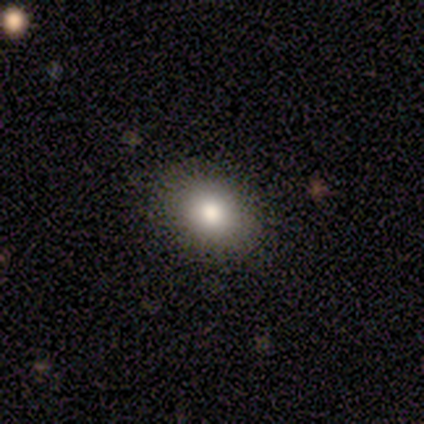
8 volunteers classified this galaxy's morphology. Overall: smooth (50%; featured or disk 25%). How rounded: in between (75%). Merging: none (67%; major disturbance 33%).